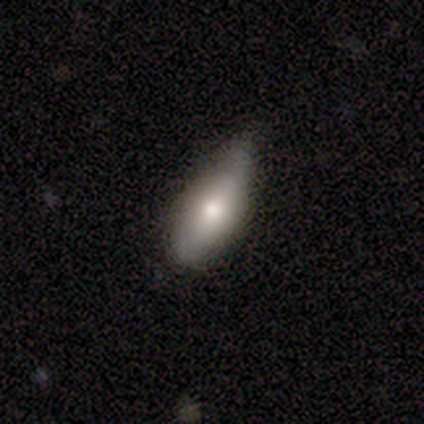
This appears to be a smooth galaxy with no disk features (100%) that is in between round and cigar-shaped (100%). Merging: none (40%, tied with minor disturbance).